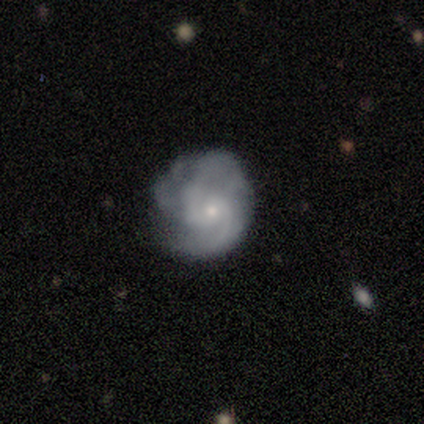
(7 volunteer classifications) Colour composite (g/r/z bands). It shows a featured or disk galaxy (86%) with no bar (67%), 2 (67%) medium (100%) spiral arms (100%) and a small central bulge (67%). Merging: none (67%).